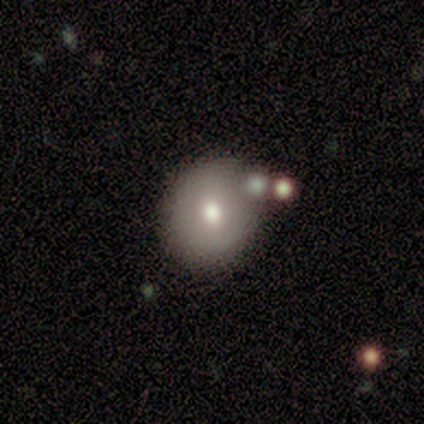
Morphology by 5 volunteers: A smooth galaxy with no disk features (40%, tied with featured or disk) that is round (50%, tied with in between). Merging: none (75%).